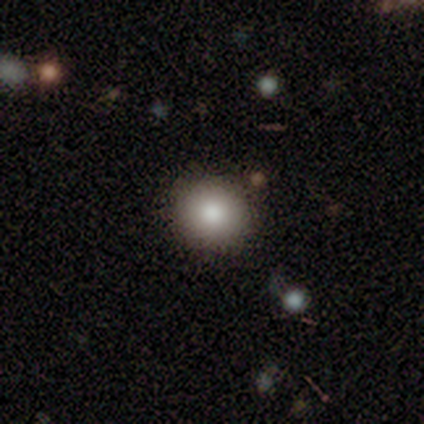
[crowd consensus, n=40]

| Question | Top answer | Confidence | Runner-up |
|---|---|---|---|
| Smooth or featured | smooth | 82% | star or artifact (10%) |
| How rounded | round | 91% | in between (9%) |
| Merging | none | 72% | minor disturbance (3%) |